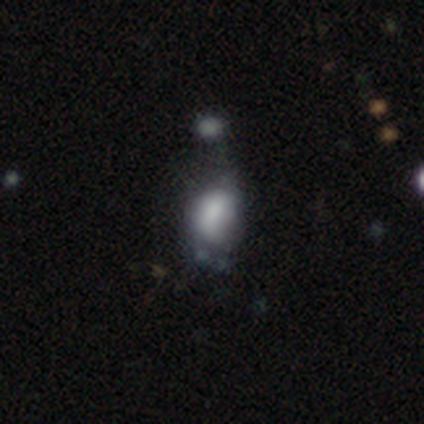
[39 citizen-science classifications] Morphology: type=smooth (62%); roundness=in between (83%); merging=minor disturbance (29%).